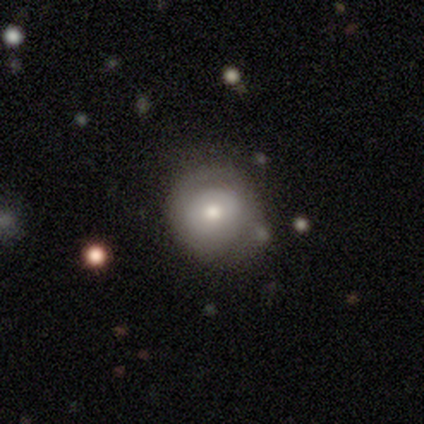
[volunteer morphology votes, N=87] A smooth galaxy with no disk features (67%) that is round (86%). Merging: none (65%).